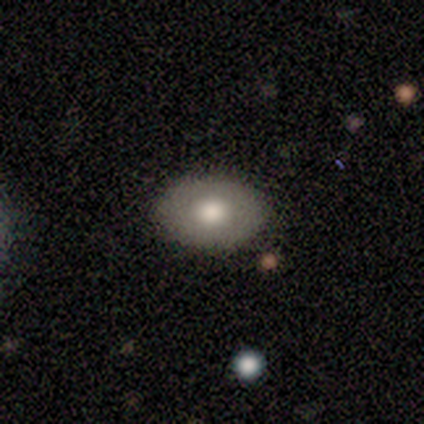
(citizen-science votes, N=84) A smooth galaxy with no disk features (75%) that is in between round and cigar-shaped (87%). Merging: none (88%).